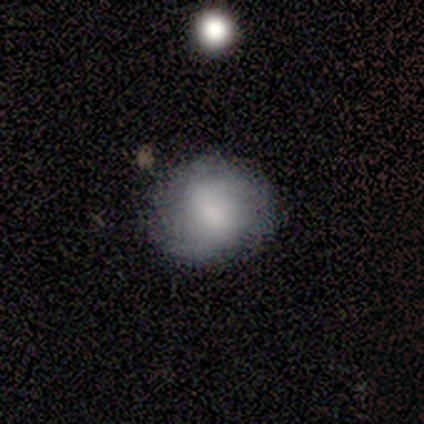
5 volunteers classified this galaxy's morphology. A smooth galaxy with no disk features (60%) that is round (100%).

Vote fractions:
- Smooth or featured? smooth: 60% / featured or disk: 40% / star or artifact: 0%
- How rounded? round: 100% / in between: 0% / cigar-shaped: 0%
- Merging? none: 100% / minor disturbance: 0% / major disturbance: 0% / merger: 0%